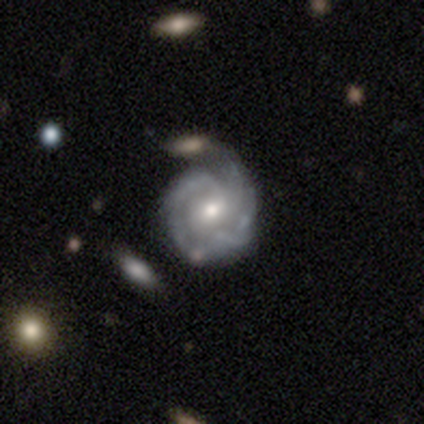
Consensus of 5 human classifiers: A featured or disk galaxy (80%) with no bar (100%), 2 (50%, tied with can't tell) medium (100%) spiral arms (50%, tied with no) and a moderate central bulge (50%, tied with small). Merging: none (60%).